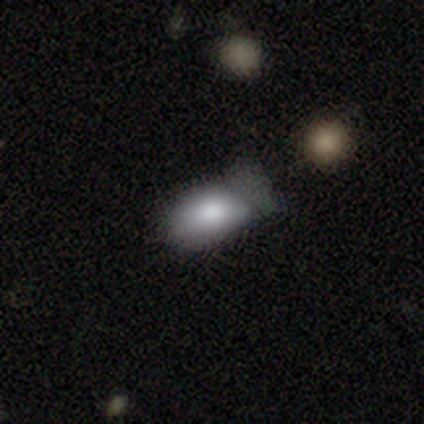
smooth_or_featured: smooth (p=0.93) [alt: featured or disk p=0.05]
how_rounded: in between (p=0.93) [alt: cigar-shaped p=0.05]
merging: none (p=0.52) [alt: minor disturbance p=0.40]